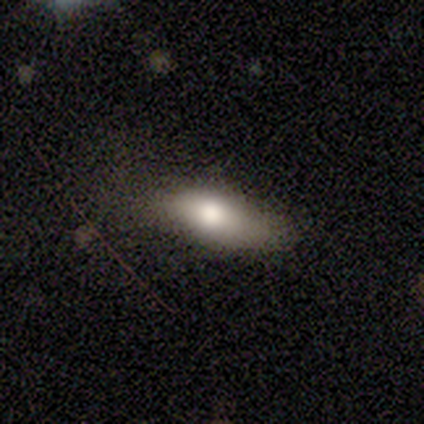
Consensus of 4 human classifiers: Smooth or featured?
  - smooth: 100% *
  - featured or disk: 0%
  - star or artifact: 0%
How rounded?
  - in between: 100% *
  - round: 0%
  - cigar-shaped: 0%
Merging?
  - none: 50% * (tied)
  - major disturbance: 50% * (tied)
  - minor disturbance: 0%
  - merger: 0%